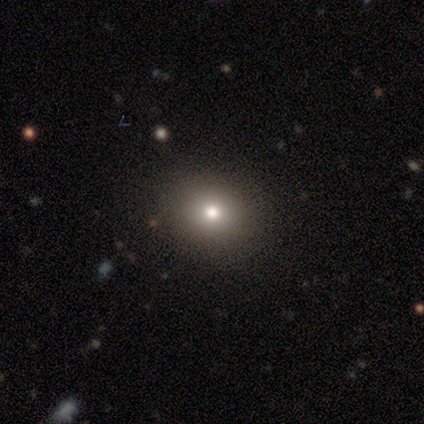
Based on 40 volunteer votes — Smooth or featured?
  - smooth: 68% *
  - star or artifact: 22%
  - featured or disk: 10%
How rounded?
  - round: 78% *
  - in between: 22%
  - cigar-shaped: 0%
Merging?
  - none: 90% *
  - minor disturbance: 10%
  - major disturbance: 0%
  - merger: 0%